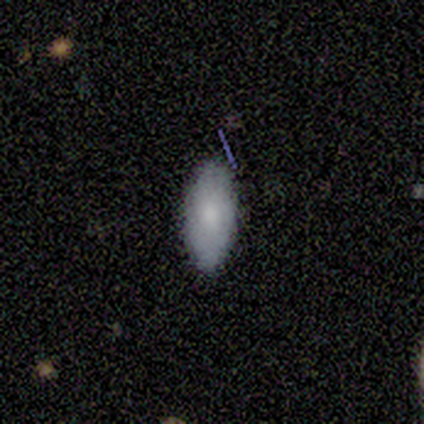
Q: Smooth or featured?
A: smooth (85%); runner-up: featured or disk (15%)
Q: How rounded?
A: in between (91%); runner-up: round (9%)
Q: Merging?
A: none (85%); runner-up: minor disturbance (15%)